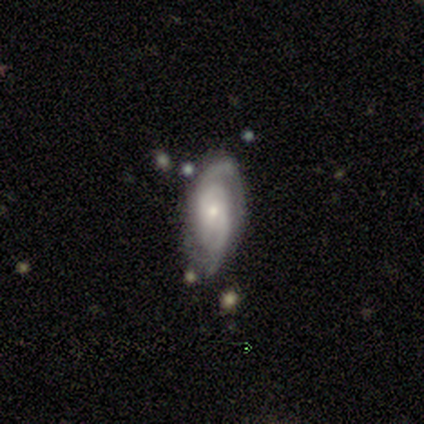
Smooth or featured: featured or disk — 78% (smooth — 22%)
Edge-on disk: no — 100%
Bar: no — 43% (strong — 29%)
Spiral arms: yes — 86% (no — 14%)
Spiral winding: tight — 67% (medium — 33%)
Spiral arm count: 2 — 50% (can't tell — 33%)
Bulge size: small — 71% (large — 14%)
Merging: none — 78% (minor disturbance — 22%)